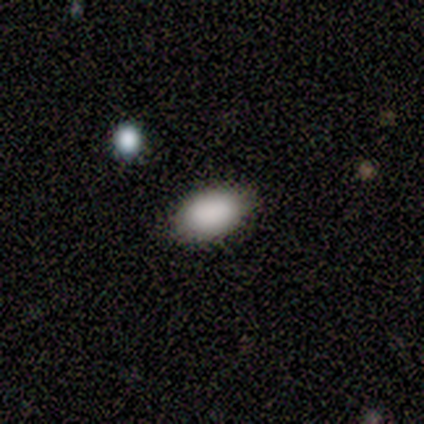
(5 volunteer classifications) Smooth or featured? 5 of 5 (100%) said smooth. How rounded? 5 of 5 (100%) said in between. Merging? 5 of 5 (100%) said none.